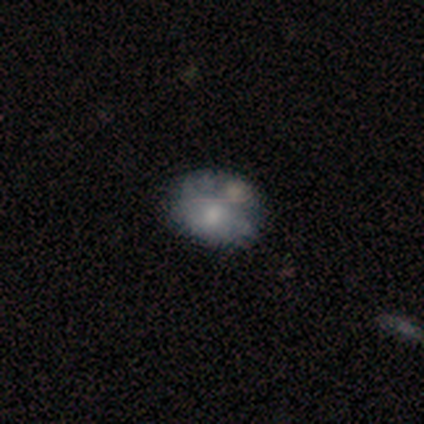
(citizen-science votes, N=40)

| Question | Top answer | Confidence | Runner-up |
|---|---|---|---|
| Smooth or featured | smooth | 50% | featured or disk (38%) |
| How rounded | in between | 80% | round (20%) |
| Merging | none | 49% | merger (29%) |